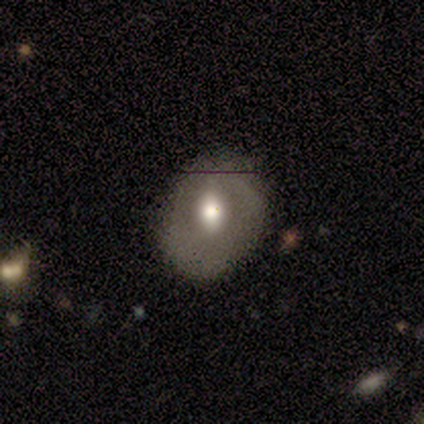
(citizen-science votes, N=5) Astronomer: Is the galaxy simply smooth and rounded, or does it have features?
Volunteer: featured or disk — 80%.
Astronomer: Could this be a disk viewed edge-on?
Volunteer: no — 100%.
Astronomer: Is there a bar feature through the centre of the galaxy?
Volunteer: weak — 50%, tied with no at 50%.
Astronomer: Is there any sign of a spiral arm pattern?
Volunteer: no — 75%.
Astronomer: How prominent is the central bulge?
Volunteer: moderate — 75%.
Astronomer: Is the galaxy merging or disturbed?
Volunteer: none — 40%, tied with minor disturbance at 40%.